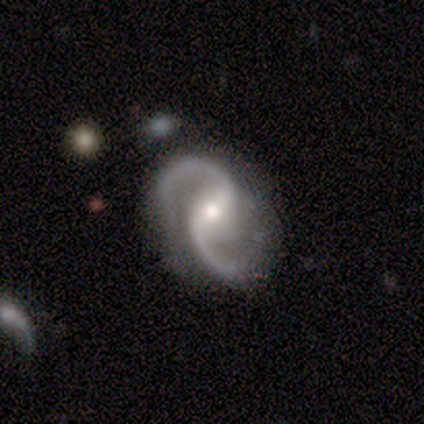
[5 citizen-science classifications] featured or disk 100%, smooth 0%, star or artifact 0%. Down the decision tree: edge-on disk — no (80%); bar — no (50%); spiral arms — yes (75%); spiral arm count — 2 (100%); spiral winding — tight (33%, tied with medium and loose); bulge size — moderate (75%); merging — none (40%, tied with major disturbance).